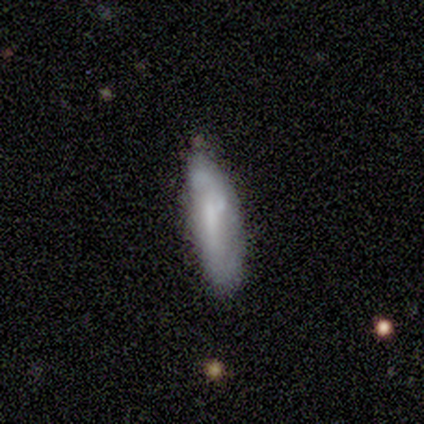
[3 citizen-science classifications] smooth 33% (tied), featured or disk 33% (tied), star or artifact 33% (tied). Down the decision tree: how rounded — in between (100%); merging — none (50%, tied with minor disturbance).